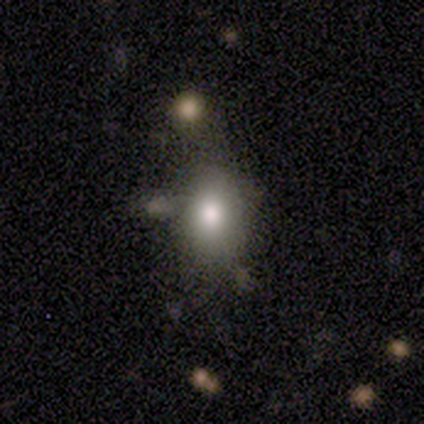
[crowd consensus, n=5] Q: Smooth or featured?
A: smooth (80%); runner-up: star or artifact (20%)
Q: How rounded?
A: round (50%); tied with: in between (50%)
Q: Merging?
A: none (75%); runner-up: minor disturbance (25%)